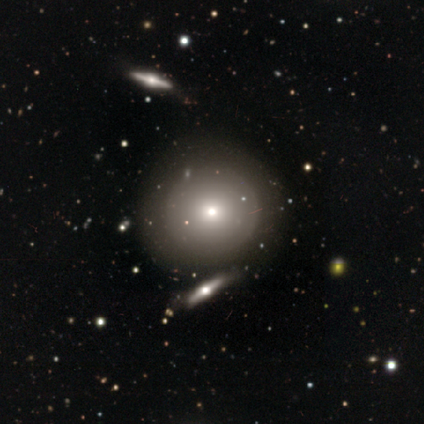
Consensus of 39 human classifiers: Q: Smooth or featured?
A: smooth (56%); runner-up: featured or disk (28%)
Q: How rounded?
A: round (91%); runner-up: in between (5%)
Q: Merging?
A: none (67%); runner-up: minor disturbance (24%)